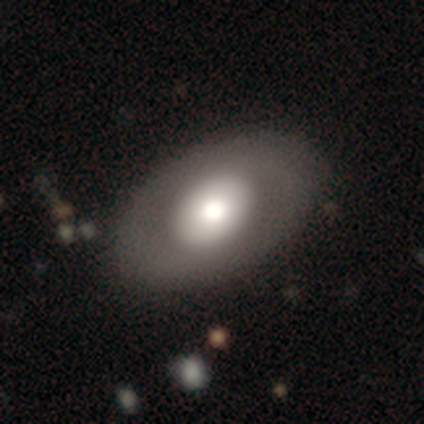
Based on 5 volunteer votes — smooth-or-featured: smooth: 60% | featured or disk: 40% | star or artifact: 0%
  how-rounded: in between: 100% | round: 0% | cigar-shaped: 0%
  merging: none: 100% | minor disturbance: 0% | major disturbance: 0% | merger: 0%